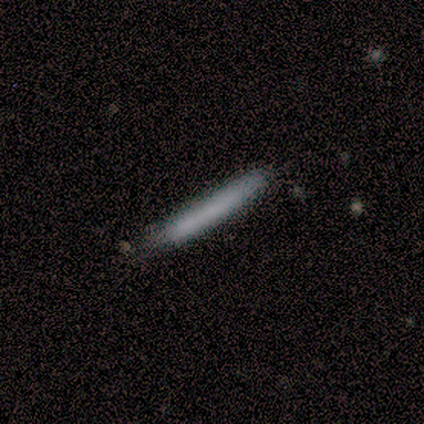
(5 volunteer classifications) Q: Smooth or featured?
A: smooth (100%)
Q: How rounded?
A: cigar-shaped (100%)
Q: Merging?
A: none (80%); runner-up: minor disturbance (20%)